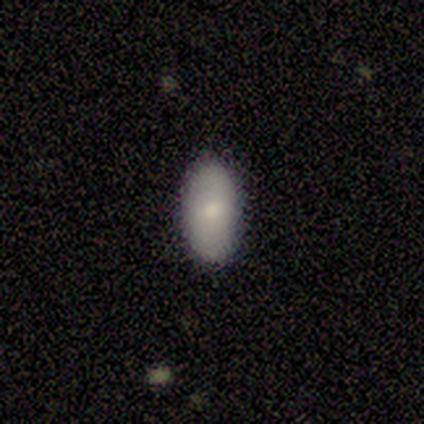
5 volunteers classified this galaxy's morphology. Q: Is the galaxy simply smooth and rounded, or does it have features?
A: smooth — 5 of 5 (100%).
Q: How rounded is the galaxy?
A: in between — 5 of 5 (100%).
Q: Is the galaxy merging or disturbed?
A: none — 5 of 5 (100%).